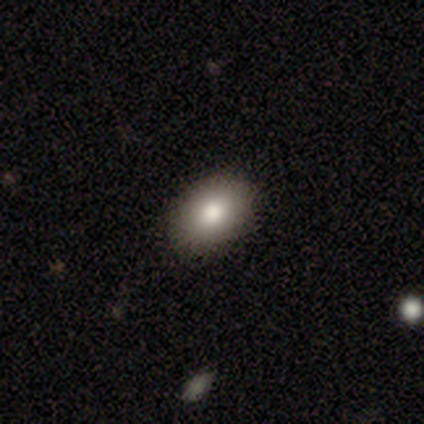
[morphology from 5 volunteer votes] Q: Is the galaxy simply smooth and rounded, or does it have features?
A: smooth — 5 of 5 (100%).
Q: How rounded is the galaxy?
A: in between — 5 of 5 (100%).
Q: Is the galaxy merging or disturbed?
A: none — 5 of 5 (100%).